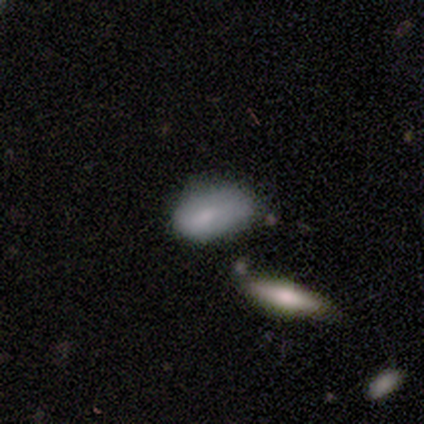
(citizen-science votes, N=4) Overall: smooth (100%). How rounded: in between (75%). Merging: minor disturbance (50%, tied with major disturbance).